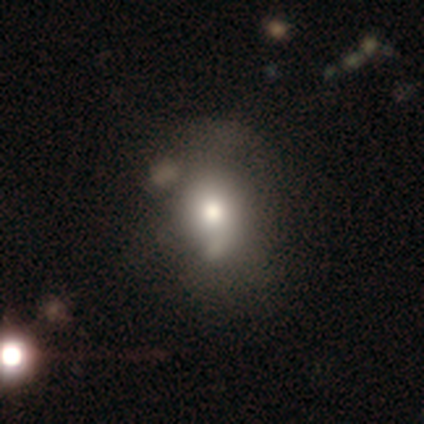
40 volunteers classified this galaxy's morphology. This appears to be a smooth galaxy with no disk features (62%) that is in between round and cigar-shaped (52%). Merging: none (30%, tied with minor disturbance and major disturbance).